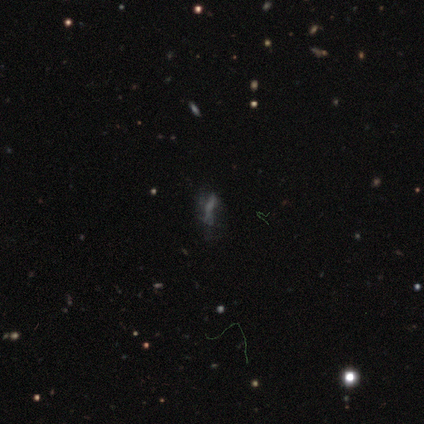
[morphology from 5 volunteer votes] Smooth or featured? 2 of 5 (40%, tied with star or artifact) said featured or disk. Edge-on disk? 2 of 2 (100%) said no. Bar? 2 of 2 (100%) said no. Spiral arms? 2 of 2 (100%) said no. Bulge size? 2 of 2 (100%) said none. Merging? 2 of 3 (67%) said major disturbance.